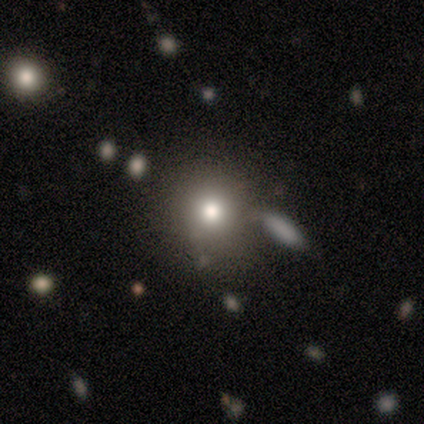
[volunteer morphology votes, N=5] smooth 80%, star or artifact 20%, featured or disk 0%. Down the decision tree: how rounded — round (75%); merging — none (75%).